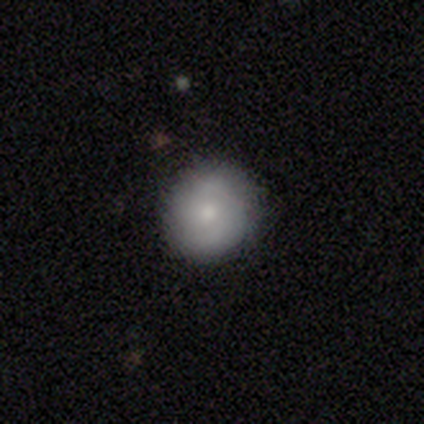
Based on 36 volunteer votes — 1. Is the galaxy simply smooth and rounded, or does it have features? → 47% smooth, 42% featured or disk, 11% star or artifact.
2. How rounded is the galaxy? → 94% round, 6% in between, 0% cigar-shaped.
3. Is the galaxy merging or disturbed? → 84% none, 16% minor disturbance, 0% major disturbance, 0% merger.